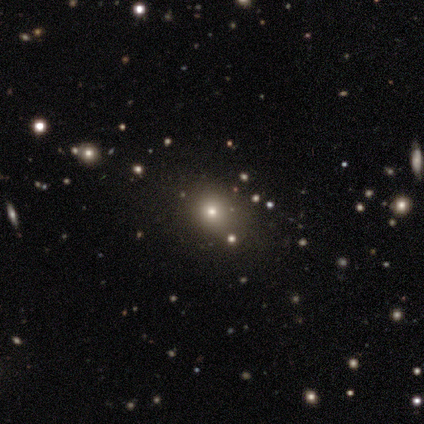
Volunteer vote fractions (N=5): Smooth or featured: smooth — 60% (star or artifact — 40%)
How rounded: round — 67% (in between — 33%)
Merging: none — 100%